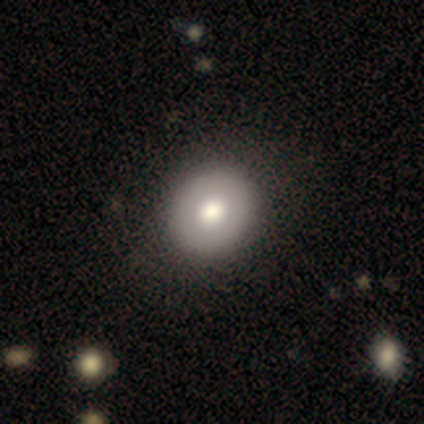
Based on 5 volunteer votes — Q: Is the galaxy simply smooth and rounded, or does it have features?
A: smooth — 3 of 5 (60%).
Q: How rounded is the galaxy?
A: round — 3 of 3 (100%).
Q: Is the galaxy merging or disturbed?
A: none — 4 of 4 (100%).